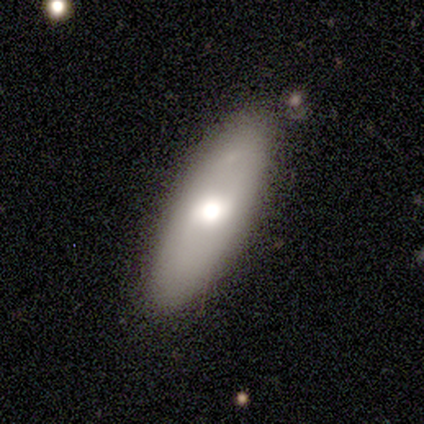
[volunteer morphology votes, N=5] Q: Smooth or featured?
A: smooth (80%); runner-up: featured or disk (20%)
Q: How rounded?
A: in between (50%); tied with: cigar-shaped (50%)
Q: Merging?
A: none (80%); runner-up: minor disturbance (20%)